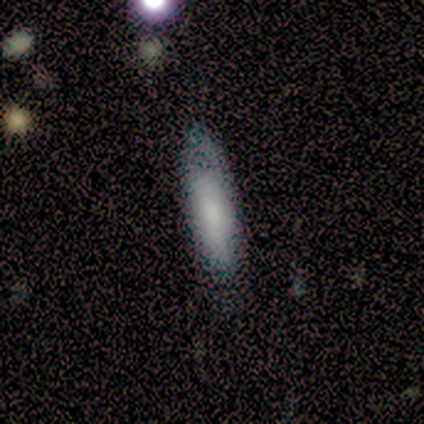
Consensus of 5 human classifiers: This appears to be a featured or disk galaxy (60%) viewed edge-on (67%) with a boxy central bulge (50%, tied with none). Merging: none (50%).